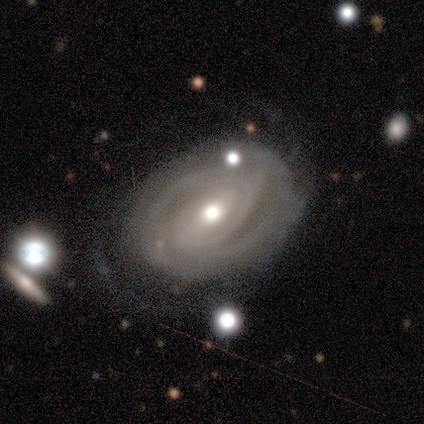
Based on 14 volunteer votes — Smooth or featured? 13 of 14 (93%) said featured or disk. Edge-on disk? 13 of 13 (100%) said no. Bar? 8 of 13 (62%) said no. Spiral arms? 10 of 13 (77%) said yes. Spiral winding? 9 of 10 (90%) said tight. Spiral arm count? 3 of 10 (30%, tied with 4 and can't tell) said 2. Bulge size? 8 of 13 (62%) said moderate. Merging? 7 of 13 (54%) said none.